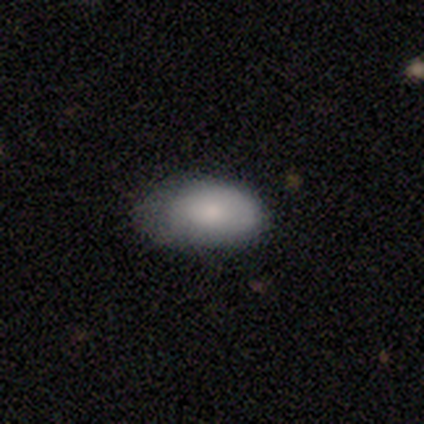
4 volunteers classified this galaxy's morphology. This is likely a smooth galaxy (75%). How rounded: clearly in between (100%). Merging: likely none (75%).